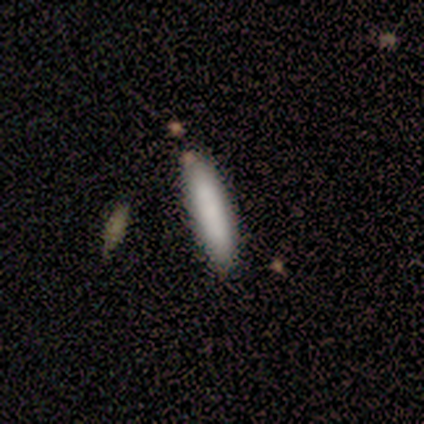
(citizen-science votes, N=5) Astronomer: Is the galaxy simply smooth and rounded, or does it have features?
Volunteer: smooth — 100%.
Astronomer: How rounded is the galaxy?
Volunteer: cigar-shaped — 80%.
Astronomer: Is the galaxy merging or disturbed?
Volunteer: none — 100%.